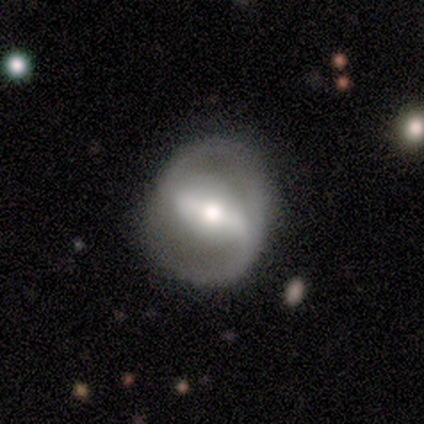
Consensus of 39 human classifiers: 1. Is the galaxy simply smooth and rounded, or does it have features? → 87% featured or disk, 8% smooth, 5% star or artifact.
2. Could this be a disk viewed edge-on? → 97% no, 3% yes.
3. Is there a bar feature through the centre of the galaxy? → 76% strong, 15% weak, 9% no.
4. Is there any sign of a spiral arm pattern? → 76% yes, 24% no.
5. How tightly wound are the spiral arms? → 48% loose, 32% medium, 20% tight.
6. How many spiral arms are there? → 96% 2, 4% 1, 0% 3, 0% 4, 0% more than 4, 0% can't tell.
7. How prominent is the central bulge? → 55% moderate, 24% small, 18% large, 3% dominant, 0% none.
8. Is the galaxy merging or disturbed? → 78% none, 14% minor disturbance, 8% major disturbance, 0% merger.